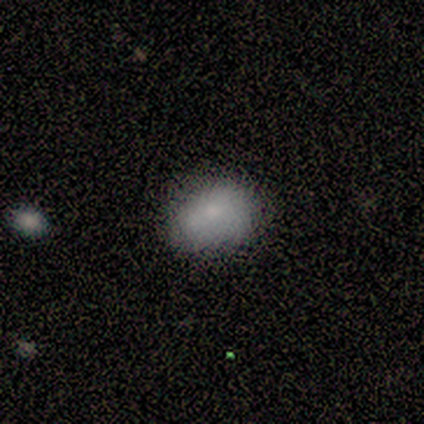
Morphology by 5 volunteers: type=smooth (100%); roundness=in between (60%); merging=none (80%).